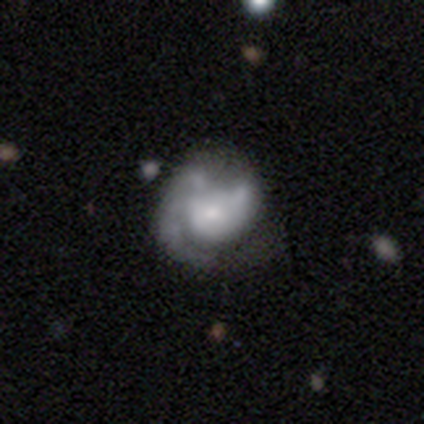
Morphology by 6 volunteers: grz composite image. It shows a featured or disk galaxy (100%) with no bar (100%), 1 (83%) tight (67%) spiral arms (100%) and a small central bulge (33%). Merging: none (67%).